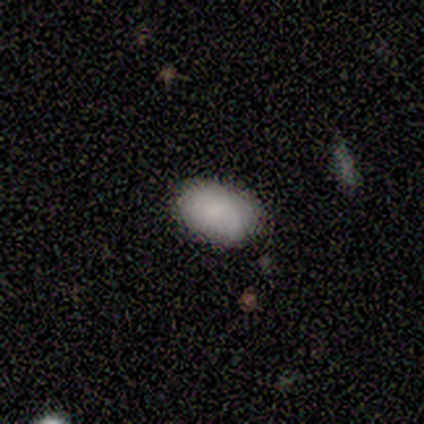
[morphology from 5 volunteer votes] Overall: smooth (60%; featured or disk 20%). How rounded: in between (100%). Merging: minor disturbance (75%).